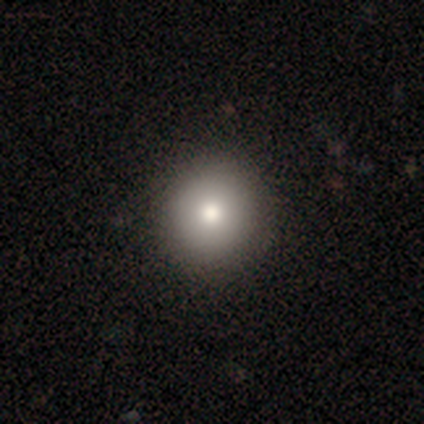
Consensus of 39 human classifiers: A smooth galaxy with no disk features (82%) that is round (100%). Merging: none (74%).